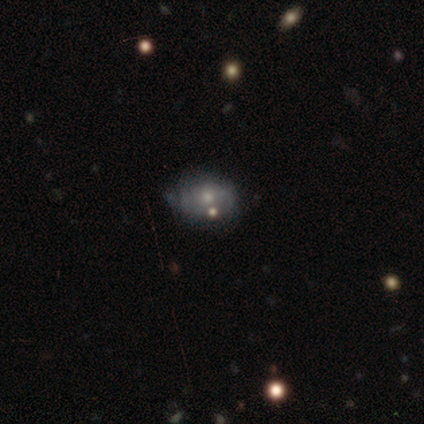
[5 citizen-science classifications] Smooth or featured?
  - smooth: 60% *
  - featured or disk: 40%
  - star or artifact: 0%
How rounded?
  - in between: 100% *
  - round: 0%
  - cigar-shaped: 0%
Merging?
  - none: 60% *
  - minor disturbance: 20%
  - merger: 20%
  - major disturbance: 0%